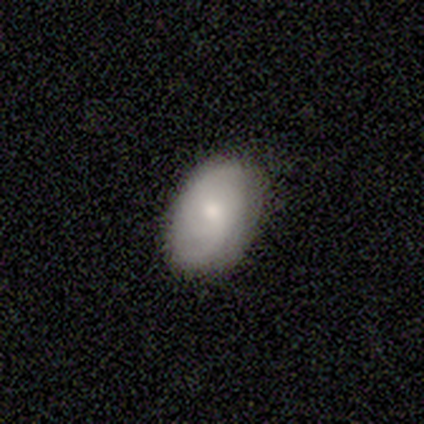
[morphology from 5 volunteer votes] This is clearly a smooth galaxy (80%). How rounded: clearly in between (100%). Merging: clearly none (100%).